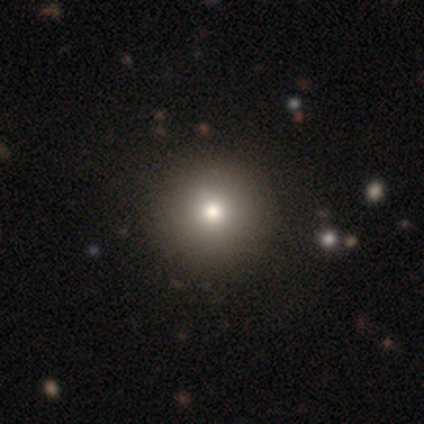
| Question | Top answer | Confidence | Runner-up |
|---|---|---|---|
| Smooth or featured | smooth | 40% | tied: featured or disk (40%) |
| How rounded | round | 100% | — |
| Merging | none | 100% | — |